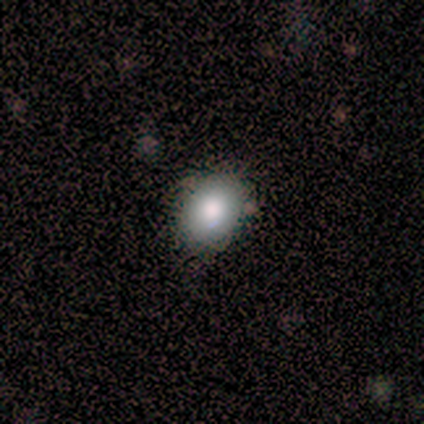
A smooth galaxy with no disk features (80%) that is in between round and cigar-shaped (75%).

Vote fractions:
- Smooth or featured? smooth: 80% / featured or disk: 20% / star or artifact: 0%
- How rounded? in between: 75% / round: 25% / cigar-shaped: 0%
- Merging? none: 80% / minor disturbance: 20% / major disturbance: 0% / merger: 0%